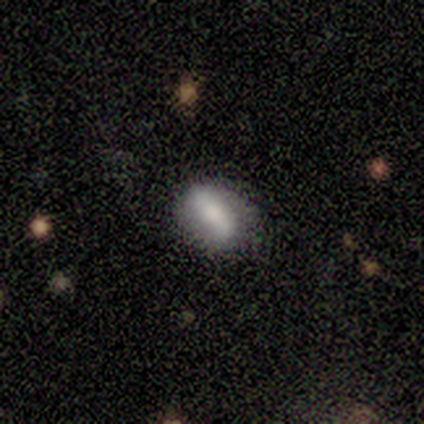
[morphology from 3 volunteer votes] smooth_or_featured: smooth (p=0.67) [alt: featured or disk p=0.33]
how_rounded: in between (p=1.00)
merging: none (p=0.67) [alt: major disturbance p=0.33]